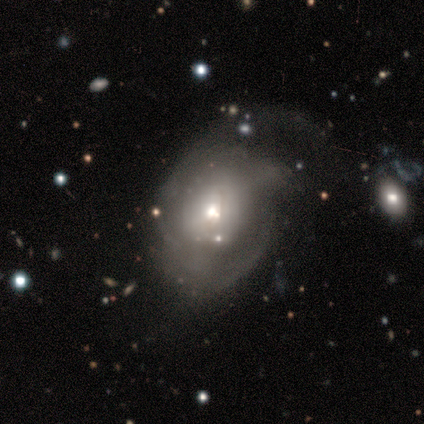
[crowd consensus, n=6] Smooth or featured? 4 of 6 (67%) said featured or disk. Edge-on disk? 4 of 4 (100%) said no. Bar? 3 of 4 (75%) said no. Spiral arms? 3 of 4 (75%) said yes. Spiral winding? 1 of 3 (33%, tied with medium and loose) said tight. Spiral arm count? 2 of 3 (67%) said can't tell. Bulge size? 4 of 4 (100%) said moderate. Merging? 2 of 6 (33%, tied with merger) said major disturbance.